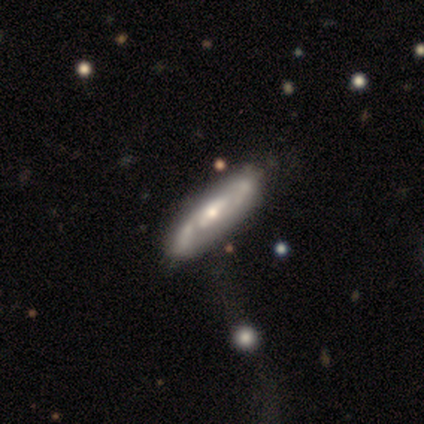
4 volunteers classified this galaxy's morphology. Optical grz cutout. It shows a featured or disk galaxy (75%) with a weak bar (50%, tied with no), 2 (100%) tight (50%, tied with medium) spiral arms (100%) and a moderate central bulge (100%). Merging: none (75%).